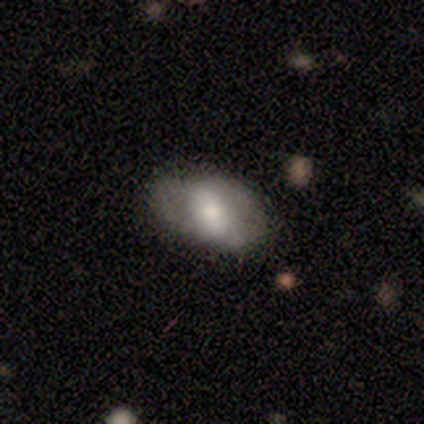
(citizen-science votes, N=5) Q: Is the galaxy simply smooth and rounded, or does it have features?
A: smooth — 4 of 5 (80%).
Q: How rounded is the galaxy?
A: in between — 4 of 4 (100%).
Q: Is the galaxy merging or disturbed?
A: none — 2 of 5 (40%, tied with minor disturbance).